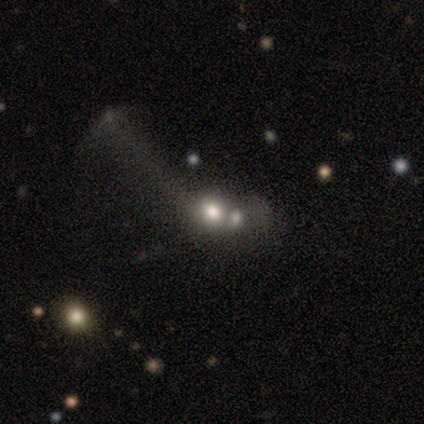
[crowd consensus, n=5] Smooth or featured?
  - smooth: 80% *
  - featured or disk: 20%
  - star or artifact: 0%
How rounded?
  - round: 100% *
  - in between: 0%
  - cigar-shaped: 0%
Merging?
  - merger: 60% *
  - none: 20%
  - major disturbance: 20%
  - minor disturbance: 0%